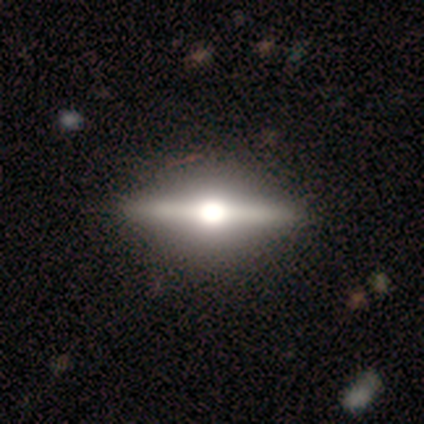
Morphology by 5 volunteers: This appears to be a featured or disk galaxy (80%) viewed edge-on (100%) with a rounded central bulge (100%). Merging: none (80%).